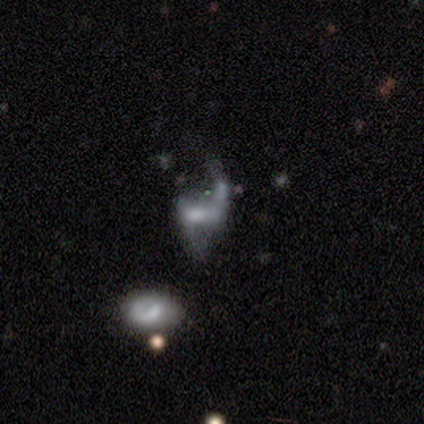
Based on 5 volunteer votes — smooth_or_featured: featured or disk (p=0.60) [alt: smooth p=0.40]
disk_edge_on: no (p=1.00)
bar: strong (p=0.33) [tied with: weak p=0.33, no p=0.33]
has_spiral_arms: yes (p=0.67) [alt: no p=0.33]
spiral_winding: tight (p=0.50) [tied with: loose p=0.50]
spiral_arm_count: 1 (p=0.50) [tied with: 2 p=0.50]
bulge_size: moderate (p=0.67) [alt: small p=0.33]
merging: merger (p=0.40) [alt: none p=0.20]